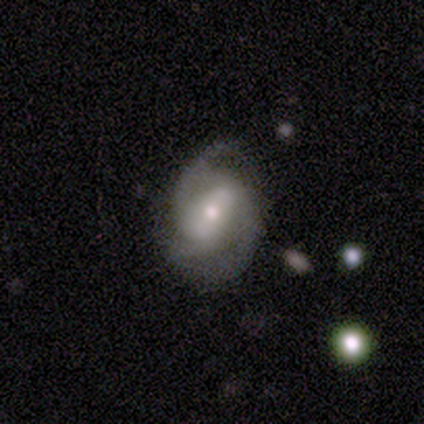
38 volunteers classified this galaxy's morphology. Q: Smooth or featured?
A: featured or disk (89%); runner-up: smooth (11%)
Q: Edge-on disk?
A: no (97%); runner-up: yes (3%)
Q: Bar?
A: strong (42%); runner-up: weak (36%)
Q: Spiral arms?
A: yes (94%); runner-up: no (6%)
Q: Spiral winding?
A: medium (71%); runner-up: tight (19%)
Q: Spiral arm count?
A: 2 (71%); runner-up: 3 (19%)
Q: Bulge size?
A: moderate (61%); runner-up: small (33%)
Q: Merging?
A: none (66%); runner-up: minor disturbance (16%)